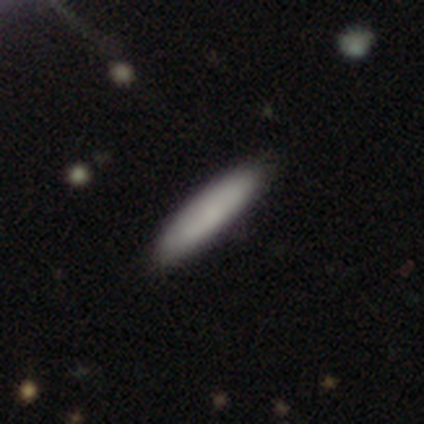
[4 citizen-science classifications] Smooth or featured? 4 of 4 (100%) said smooth. How rounded? 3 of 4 (75%) said cigar-shaped. Merging? 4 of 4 (100%) said none.